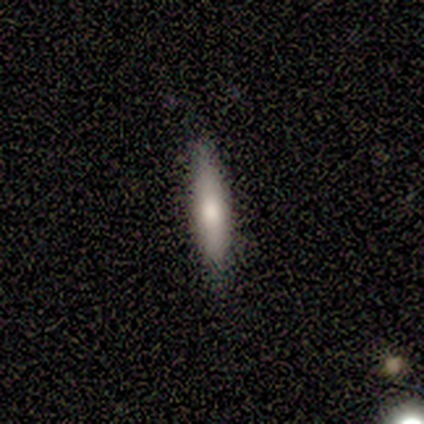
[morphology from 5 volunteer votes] type=smooth (60%); roundness=cigar-shaped (100%); merging=none (100%).